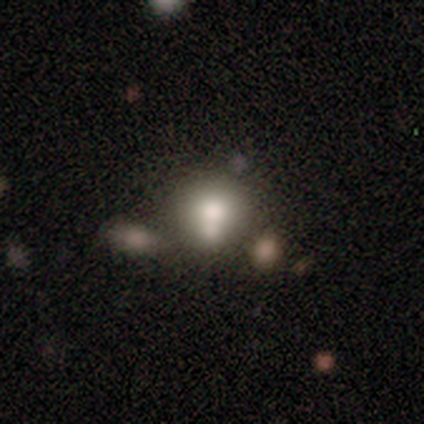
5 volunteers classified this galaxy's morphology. This is clearly a smooth galaxy (80%). How rounded: clearly round (100%). Merging: clearly none (100%).